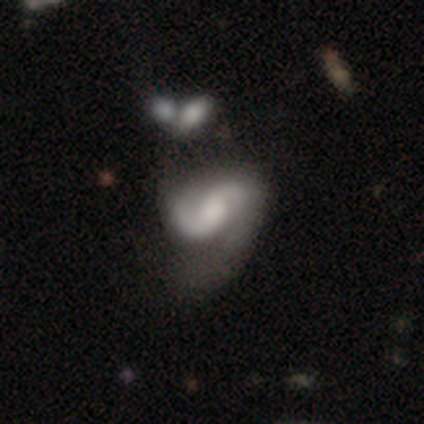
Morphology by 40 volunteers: smooth_or_featured: featured or disk (p=0.82) [alt: smooth p=0.12]
disk_edge_on: no (p=1.00)
bar: weak (p=0.39) [tied with: no p=0.39]
has_spiral_arms: yes (p=0.97) [alt: no p=0.03]
spiral_winding: medium (p=0.47) [alt: loose p=0.44]
spiral_arm_count: 2 (p=0.91) [alt: 1 p=0.06]
bulge_size: moderate (p=0.45) [alt: large p=0.30]
merging: major disturbance (p=0.39) [alt: none p=0.13]